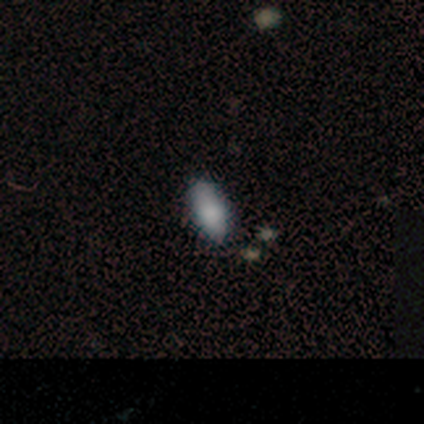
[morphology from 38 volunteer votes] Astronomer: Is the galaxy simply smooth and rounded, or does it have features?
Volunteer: smooth — 76%.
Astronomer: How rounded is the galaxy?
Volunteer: in between — 79%.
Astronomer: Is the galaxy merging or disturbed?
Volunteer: none — 77%.